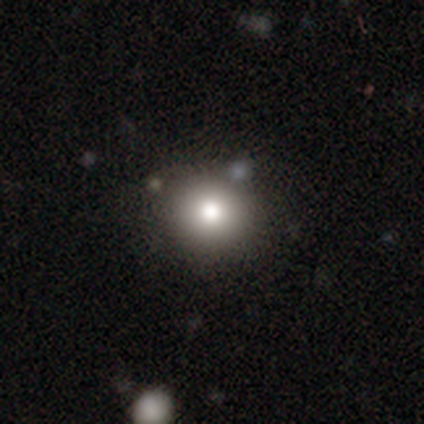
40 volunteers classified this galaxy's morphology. A smooth galaxy with no disk features (82%) that is round (85%).

Vote fractions:
- Smooth or featured? smooth: 82% / star or artifact: 10% / featured or disk: 8%
- How rounded? round: 85% / in between: 15% / cigar-shaped: 0%
- Merging? none: 86% / merger: 11% / minor disturbance: 3% / major disturbance: 0%